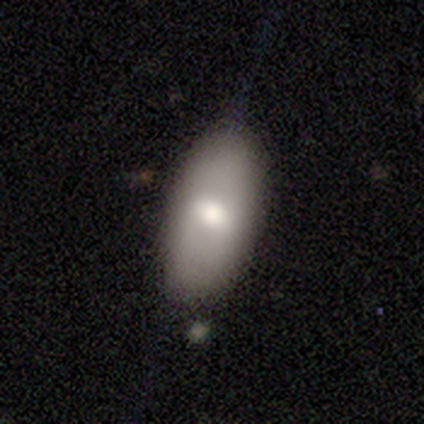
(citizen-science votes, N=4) Smooth or featured? smooth (50%, tied with featured or disk)
How rounded? in between (50%, tied with cigar-shaped)
Merging? none (75%)